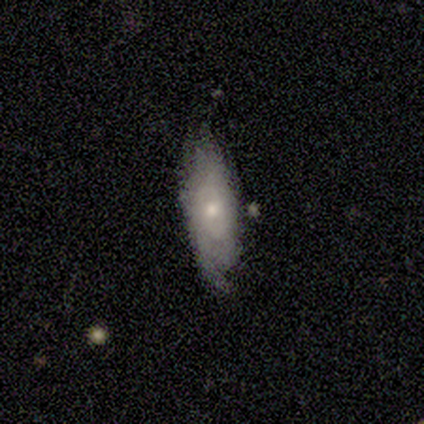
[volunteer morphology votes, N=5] This is likely a featured or disk galaxy (60%). It is clearly not viewed edge-on (100%). Bar: clearly no (100%). Spiral arm pattern: clearly yes (100%). Spiral arm count: likely can't tell (67%). Spiral winding: marginally tight (33%, tied with medium and loose). Central bulge: marginally large (33%, tied with moderate and small). Merging: clearly minor disturbance (80%).